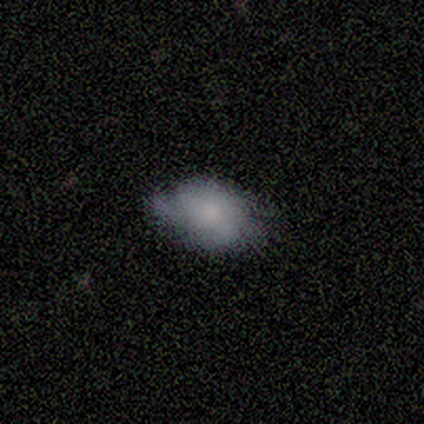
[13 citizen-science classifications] A smooth galaxy with no disk features (46%, tied with featured or disk) that is in between round and cigar-shaped (83%).

Vote fractions:
- Smooth or featured? smooth: 46% (tied) / featured or disk: 46% (tied) / star or artifact: 8%
- How rounded? in between: 83% / round: 17% / cigar-shaped: 0%
- Merging? minor disturbance: 50% / none: 42% / merger: 8% / major disturbance: 0%